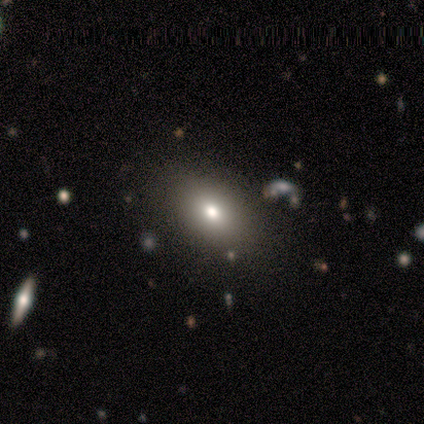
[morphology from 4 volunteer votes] A smooth galaxy with no disk features (75%) that is in between round and cigar-shaped (100%). Merging: none (100%).